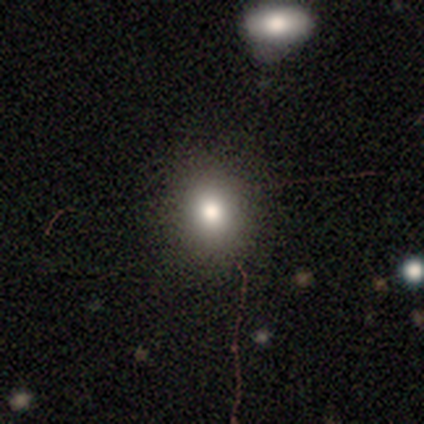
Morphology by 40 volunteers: Overall: smooth (78%). How rounded: round (77%). Merging: none (74%).